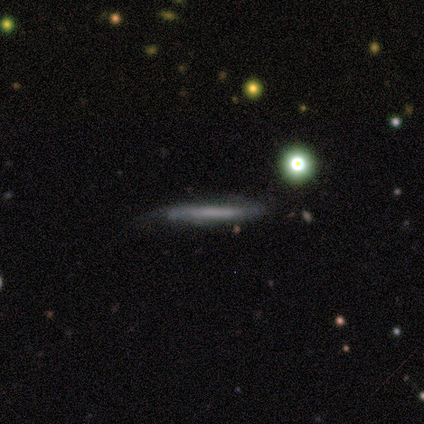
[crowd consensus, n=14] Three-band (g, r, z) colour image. It shows a featured or disk galaxy (64%) viewed edge-on (78%) with no central bulge (100%). Merging: none (71%).